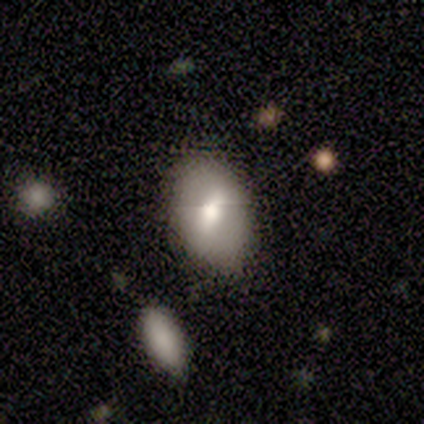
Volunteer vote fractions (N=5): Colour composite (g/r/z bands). It shows a featured or disk galaxy (60%) with a weak bar (67%), no spiral arms (100%) and a large central bulge (33%, tied with moderate and small). Merging: none (100%).